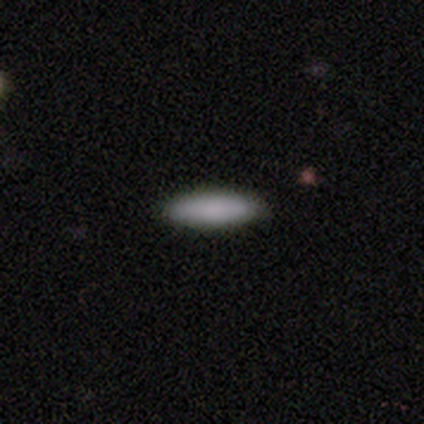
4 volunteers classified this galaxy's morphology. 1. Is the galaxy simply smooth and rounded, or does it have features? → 100% smooth, 0% featured or disk, 0% star or artifact.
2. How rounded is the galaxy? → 75% in between, 25% cigar-shaped, 0% round.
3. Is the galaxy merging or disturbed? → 100% none, 0% minor disturbance, 0% major disturbance, 0% merger.